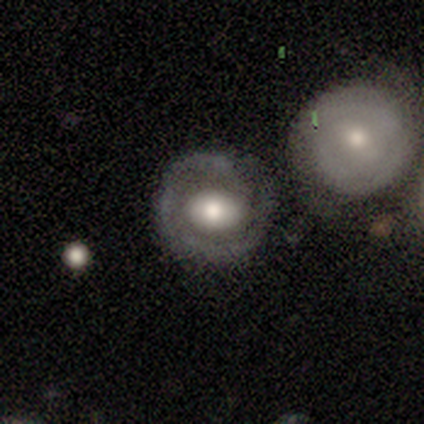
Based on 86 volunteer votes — Smooth or featured? featured or disk (67%)
Edge-on disk? no (100%)
Bar? no (71%)
Spiral arms? no (57%)
Bulge size? moderate (62%)
Merging? none (42%)